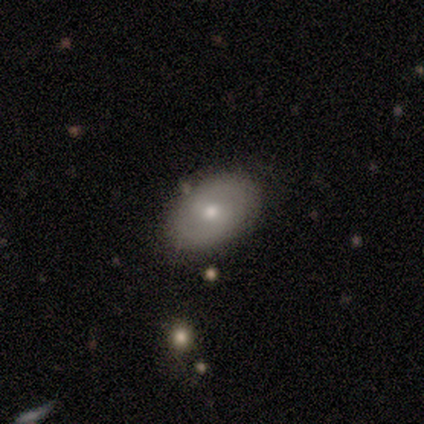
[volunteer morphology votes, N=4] A smooth galaxy with no disk features (75%) that is in between round and cigar-shaped (100%). Merging: none (100%).